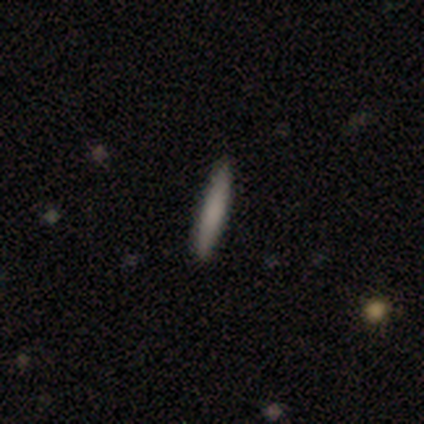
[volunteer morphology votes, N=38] This is clearly a smooth galaxy (87%). How rounded: clearly cigar-shaped (100%). Merging: clearly none (92%).